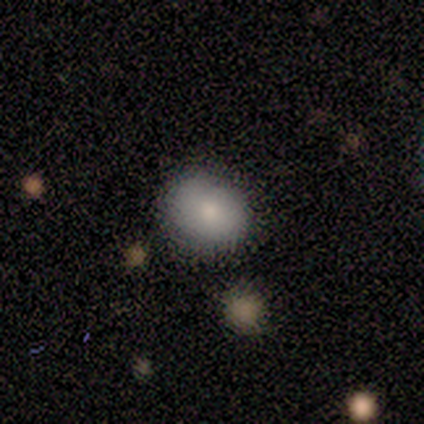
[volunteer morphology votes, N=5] smooth 60%, featured or disk 40%, star or artifact 0%. Down the decision tree: how rounded — in between (67%); merging — none (100%).